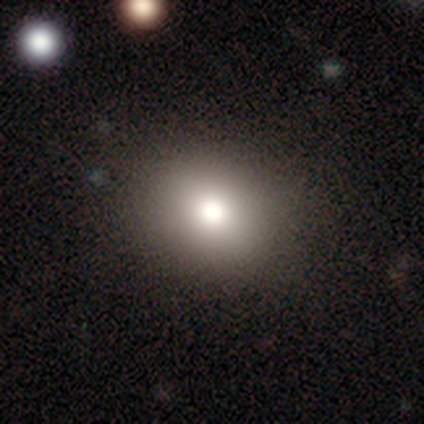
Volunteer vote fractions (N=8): smooth_or_featured: smooth (p=1.00)
how_rounded: round (p=0.50) [tied with: in between p=0.50]
merging: none (p=0.75) [alt: major disturbance p=0.25]